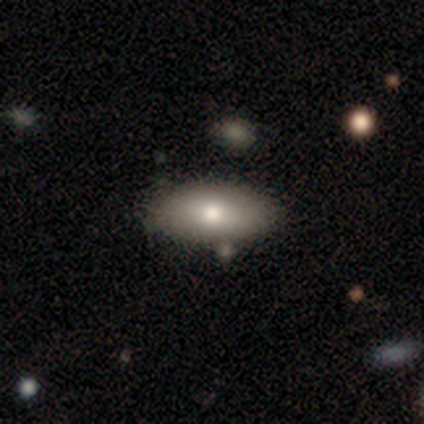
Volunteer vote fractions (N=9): Smooth or featured? smooth (89%)
How rounded? in between (100%)
Merging? none (89%)